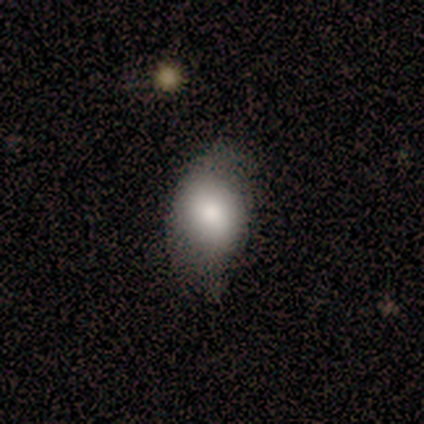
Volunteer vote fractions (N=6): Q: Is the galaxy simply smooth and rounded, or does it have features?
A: smooth — 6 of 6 (100%).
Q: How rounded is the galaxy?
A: in between — 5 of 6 (83%).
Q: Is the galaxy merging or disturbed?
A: minor disturbance — 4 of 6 (67%).